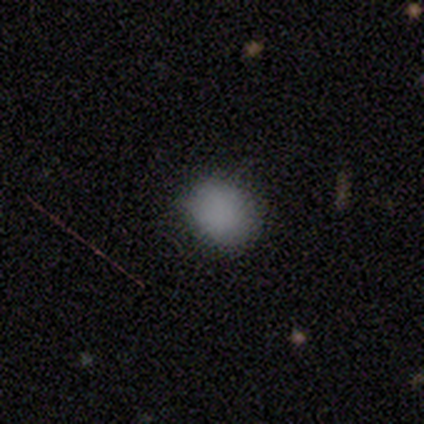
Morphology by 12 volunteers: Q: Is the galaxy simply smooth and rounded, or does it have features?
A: smooth — 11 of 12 (92%).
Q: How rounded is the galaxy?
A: round — 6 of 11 (55%).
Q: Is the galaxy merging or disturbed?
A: none — 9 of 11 (82%).